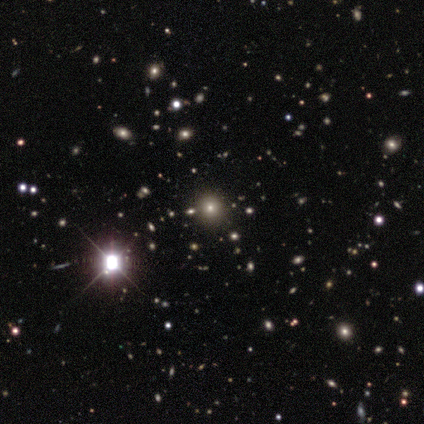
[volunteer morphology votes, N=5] A star or artifact, not a galaxy (60%).

Vote fractions:
- Smooth or featured? star or artifact: 60% / smooth: 20% / featured or disk: 20%